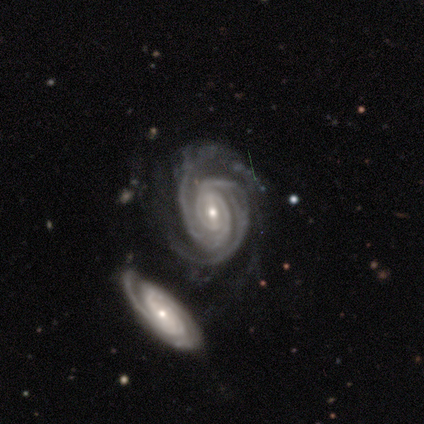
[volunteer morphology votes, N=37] featured or disk 95%, star or artifact 5%, smooth 0%. Down the decision tree: edge-on disk — no (100%); bar — weak (46%); spiral arms — yes (97%); spiral arm count — 2 (44%); spiral winding — tight (79%); bulge size — small (51%); merging — none (46%).